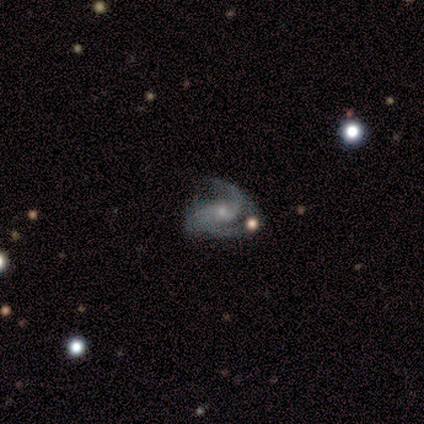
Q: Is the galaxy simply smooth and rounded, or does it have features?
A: featured or disk — 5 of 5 (100%).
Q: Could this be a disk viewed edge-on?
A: no — 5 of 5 (100%).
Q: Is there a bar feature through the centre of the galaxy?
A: no — 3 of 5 (60%).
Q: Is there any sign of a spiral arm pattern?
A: yes — 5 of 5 (100%).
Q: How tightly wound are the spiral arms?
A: medium — 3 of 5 (60%).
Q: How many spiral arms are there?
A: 3 — 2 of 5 (40%, tied with can't tell).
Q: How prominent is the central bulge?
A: small — 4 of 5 (80%).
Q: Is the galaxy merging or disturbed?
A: none — 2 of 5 (40%, tied with major disturbance).